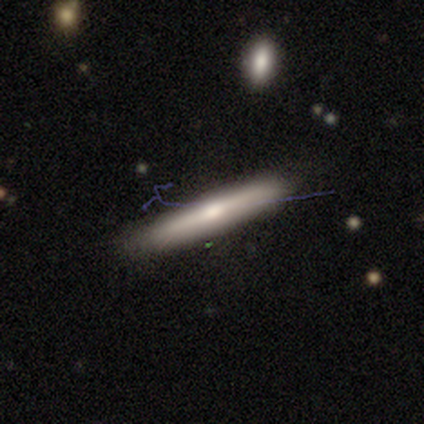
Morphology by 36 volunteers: Overall: smooth (47%, tied with featured or disk). How rounded: cigar-shaped (94%). Merging: none (79%).